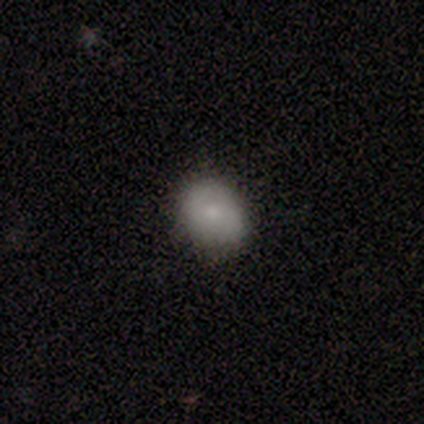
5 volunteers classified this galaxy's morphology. Volunteers were most divided on "how rounded" (2-way tie): round: 50%, in between: 50%, cigar-shaped: 0%. More confident: smooth or featured — smooth (80%); merging — minor disturbance (60%).